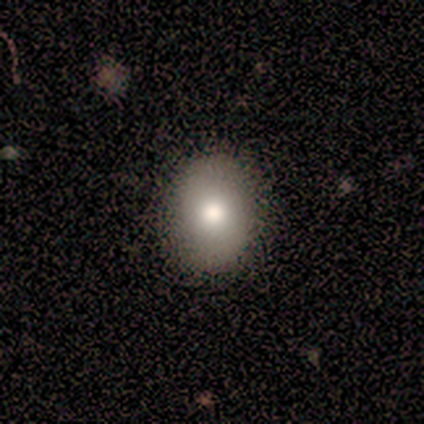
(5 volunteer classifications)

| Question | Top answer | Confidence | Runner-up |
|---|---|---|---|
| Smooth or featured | smooth | 80% | featured or disk (20%) |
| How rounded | round | 50% | tied: in between (50%) |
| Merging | none | 100% | — |